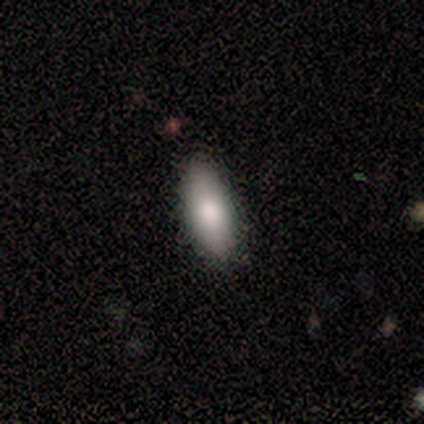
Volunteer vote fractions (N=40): Q: Smooth or featured?
A: smooth (88%); runner-up: featured or disk (10%)
Q: How rounded?
A: in between (97%); runner-up: cigar-shaped (3%)
Q: Merging?
A: none (92%); runner-up: minor disturbance (8%)